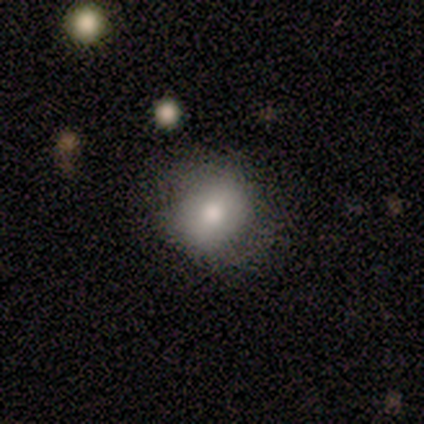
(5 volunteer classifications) smooth_or_featured: smooth (p=0.80) [alt: featured or disk p=0.20]
how_rounded: round (p=0.75) [alt: in between p=0.25]
merging: none (p=0.60) [alt: minor disturbance p=0.40]